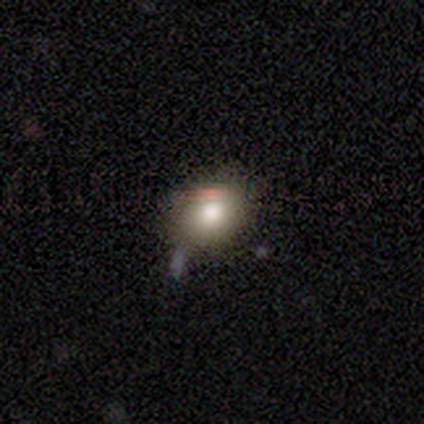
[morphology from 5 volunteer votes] Overall: smooth (100%). How rounded: in between (80%). Merging: none (60%; minor disturbance 40%).